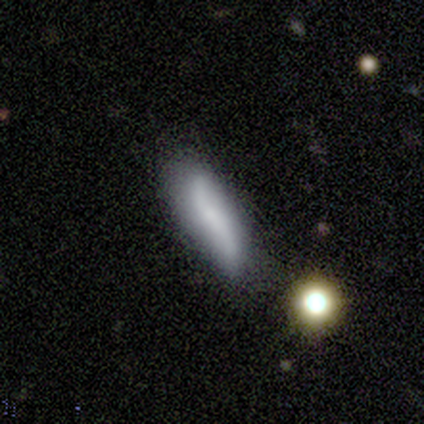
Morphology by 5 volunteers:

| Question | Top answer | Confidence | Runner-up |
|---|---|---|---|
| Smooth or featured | featured or disk | 40% | tied: star or artifact (40%) |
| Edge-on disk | yes | 50% | tied: no (50%) |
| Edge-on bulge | none | 100% | — |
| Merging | none | 33% | tied: minor disturbance (33%), merger (33%) |